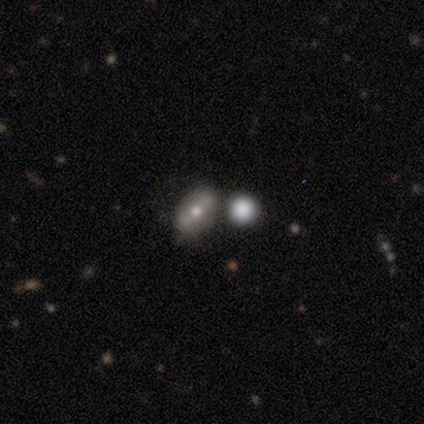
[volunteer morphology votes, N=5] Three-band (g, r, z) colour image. It shows a smooth galaxy with no disk features (80%) that is in between round and cigar-shaped (75%). Merging: none (100%).